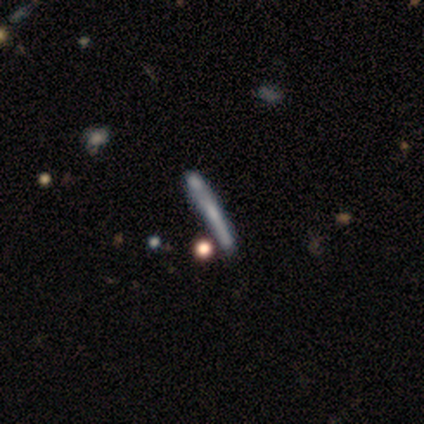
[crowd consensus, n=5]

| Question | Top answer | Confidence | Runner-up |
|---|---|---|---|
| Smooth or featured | featured or disk | 60% | smooth (40%) |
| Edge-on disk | yes | 100% | — |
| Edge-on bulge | none | 67% | rounded (33%) |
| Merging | none | 80% | merger (20%) |